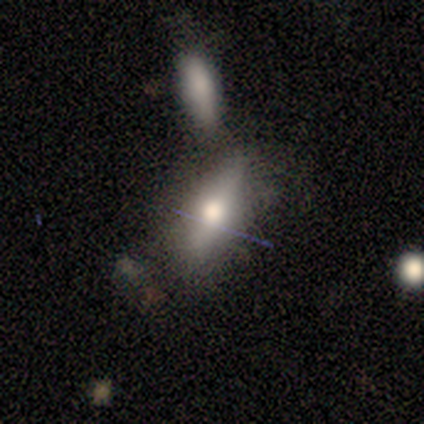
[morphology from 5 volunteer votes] type=smooth (60%); roundness=in between (100%); merging=merger (60%).